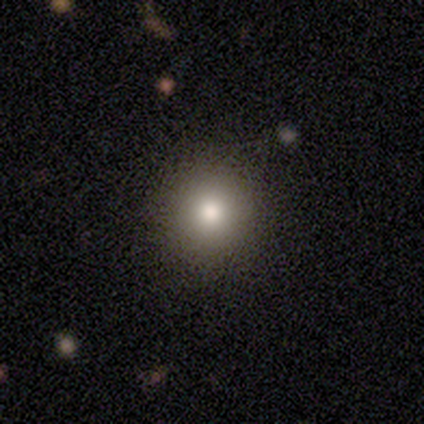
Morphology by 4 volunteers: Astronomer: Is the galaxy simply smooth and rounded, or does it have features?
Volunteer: smooth — 100%.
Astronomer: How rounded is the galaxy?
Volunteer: round — 100%.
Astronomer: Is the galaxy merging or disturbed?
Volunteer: none — 100%.